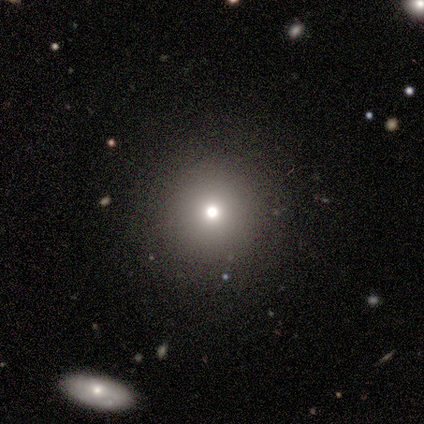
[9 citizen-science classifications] This is likely a smooth galaxy (78%). How rounded: clearly round (100%). Merging: clearly none (88%).